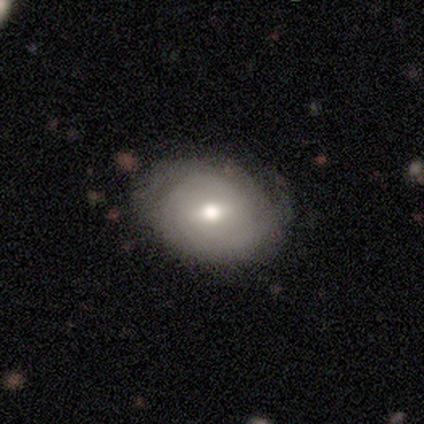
Morphology: type=featured or disk (53%); edge-on=no (95%); bar=weak (53%); spiral arms=yes (68%); winding=tight (77%); arm count=can't tell (38%); bulge=moderate (84%); merging=none (82%).